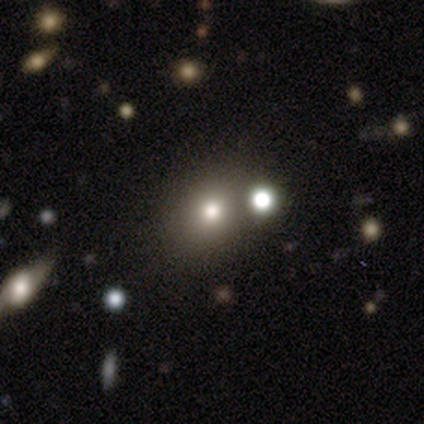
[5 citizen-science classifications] A smooth galaxy with no disk features (60%) that is round (67%).

Vote fractions:
- Smooth or featured? smooth: 60% / featured or disk: 20% / star or artifact: 20%
- How rounded? round: 67% / in between: 33% / cigar-shaped: 0%
- Merging? none: 100% / minor disturbance: 0% / major disturbance: 0% / merger: 0%